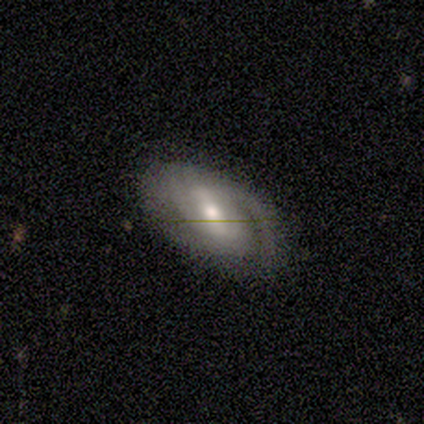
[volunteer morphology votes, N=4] Q: Smooth or featured?
A: featured or disk (75%); runner-up: star or artifact (25%)
Q: Edge-on disk?
A: no (100%)
Q: Bar?
A: weak (100%)
Q: Spiral arms?
A: yes (100%)
Q: Spiral winding?
A: medium (67%); runner-up: loose (33%)
Q: Spiral arm count?
A: 1 (67%); runner-up: 2 (33%)
Q: Bulge size?
A: moderate (100%)
Q: Merging?
A: none (67%); runner-up: major disturbance (33%)